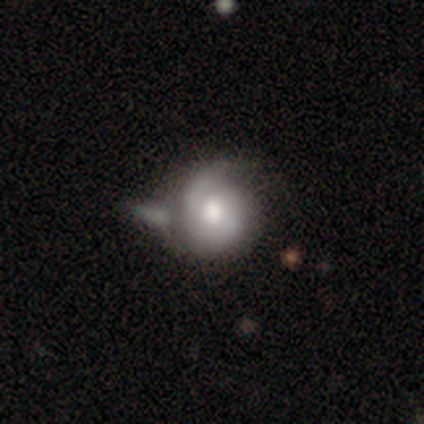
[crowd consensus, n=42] A featured or disk galaxy (79%) with no bar (79%), 2 (48%) tight (65%) spiral arms (94%) and a large central bulge (55%). Merging: merger (37%).